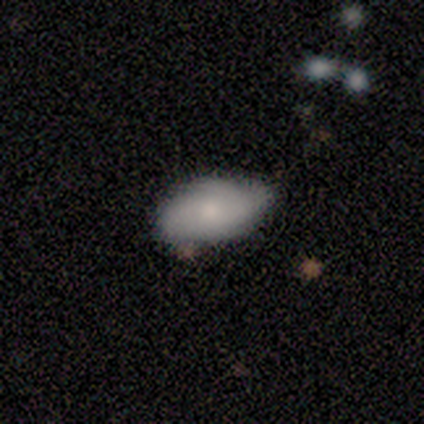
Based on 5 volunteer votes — Volunteers were most divided on "smooth or featured": smooth: 80%, featured or disk: 20%, star or artifact: 0%. More confident: how rounded — in between (100%); merging — none (100%).